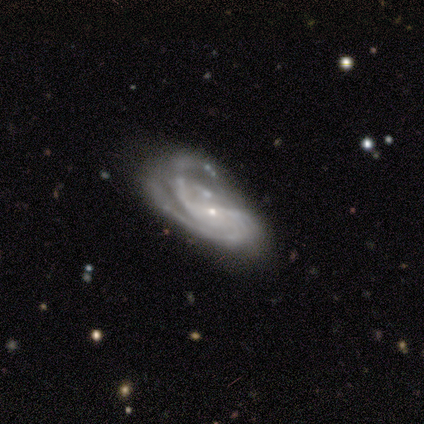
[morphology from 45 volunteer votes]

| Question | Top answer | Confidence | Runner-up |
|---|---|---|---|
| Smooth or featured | featured or disk | 93% | smooth (4%) |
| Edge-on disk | no | 100% | — |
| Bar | no | 40% | weak (36%) |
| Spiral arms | yes | 88% | no (12%) |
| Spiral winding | medium | 41% | tight (38%) |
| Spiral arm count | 2 | 46% | 3 (24%) |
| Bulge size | small | 88% | moderate (7%) |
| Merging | major disturbance | 45% | minor disturbance (30%) |